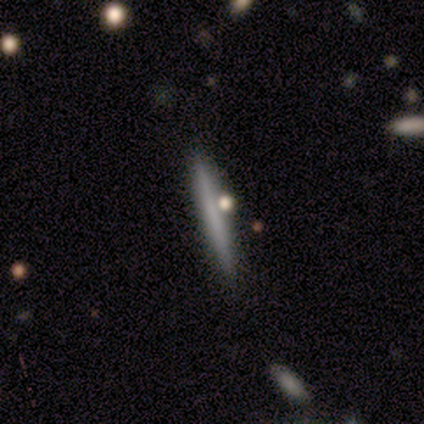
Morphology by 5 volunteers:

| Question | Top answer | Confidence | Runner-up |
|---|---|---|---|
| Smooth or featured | smooth | 80% | featured or disk (20%) |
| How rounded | cigar-shaped | 100% | — |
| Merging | none | 100% | — |